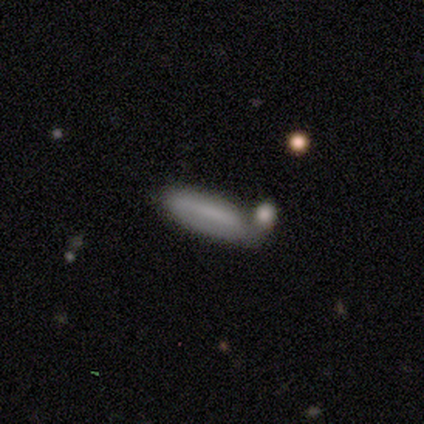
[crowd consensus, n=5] Smooth or featured? 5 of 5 (100%) said smooth. How rounded? 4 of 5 (80%) said cigar-shaped. Merging? 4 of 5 (80%) said none.